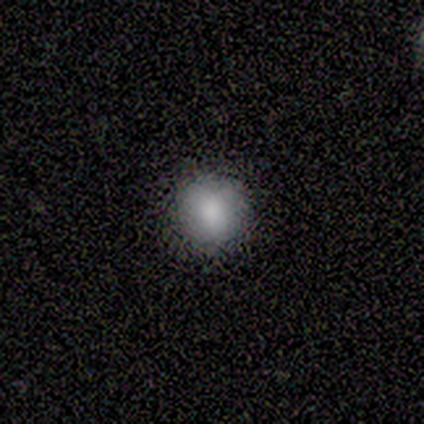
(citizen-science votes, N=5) smooth-or-featured: smooth: 60% | star or artifact: 40% | featured or disk: 0%
  how-rounded: round: 100% | in between: 0% | cigar-shaped: 0%
  merging: none: 100% | minor disturbance: 0% | major disturbance: 0% | merger: 0%